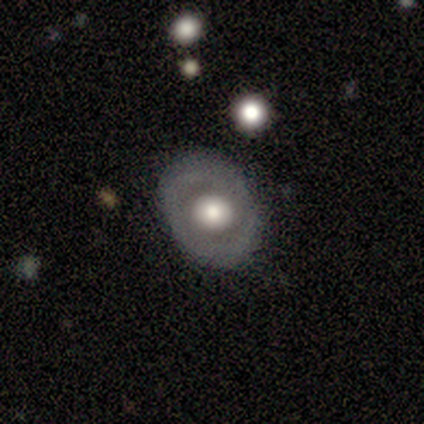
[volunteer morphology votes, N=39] Smooth or featured?
  - featured or disk: 59% *
  - smooth: 36%
  - star or artifact: 5%
Edge-on disk?
  - no: 96% *
  - yes: 4%
Bar?
  - no: 77% *
  - weak: 14%
  - strong: 9%
Spiral arms?
  - no: 73% *
  - yes: 27%
Bulge size?
  - large: 50% *
  - moderate: 45%
  - dominant: 5%
  - small: 0%
  - none: 0%
Merging?
  - none: 78% *
  - minor disturbance: 14%
  - major disturbance: 5%
  - merger: 3%